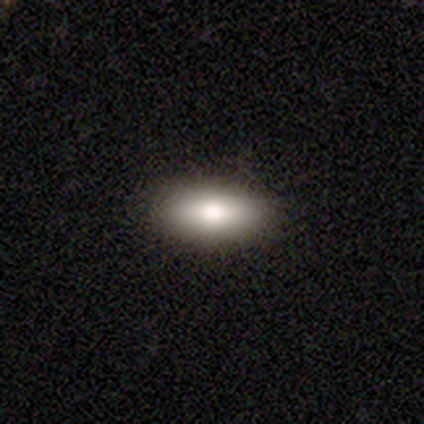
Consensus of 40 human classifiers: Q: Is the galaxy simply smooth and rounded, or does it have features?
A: smooth — 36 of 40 (90%).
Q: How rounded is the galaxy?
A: in between — 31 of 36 (86%).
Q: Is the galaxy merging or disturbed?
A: none — 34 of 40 (85%).